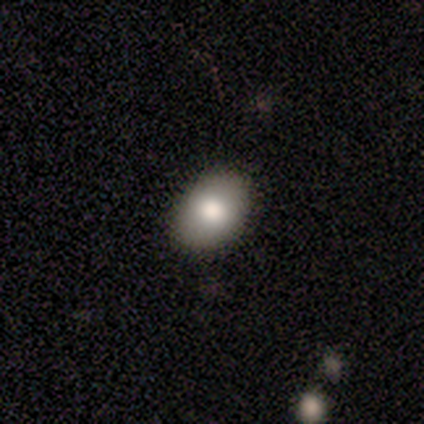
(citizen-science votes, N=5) Smooth or featured?
  - smooth: 80% *
  - featured or disk: 20%
  - star or artifact: 0%
How rounded?
  - in between: 100% *
  - round: 0%
  - cigar-shaped: 0%
Merging?
  - none: 100% *
  - minor disturbance: 0%
  - major disturbance: 0%
  - merger: 0%